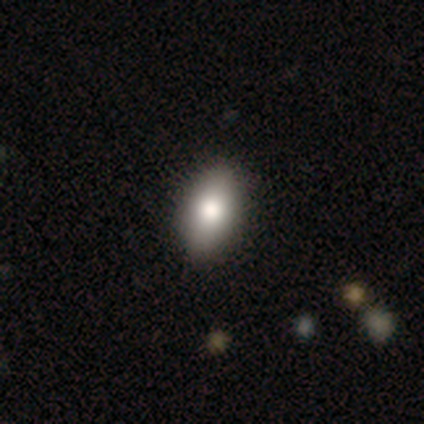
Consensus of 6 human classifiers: Smooth or featured? 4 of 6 (67%) said smooth. How rounded? 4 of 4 (100%) said in between. Merging? 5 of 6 (83%) said none.